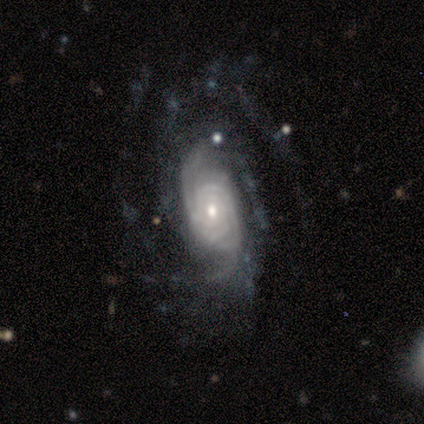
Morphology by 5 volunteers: This appears to be a featured or disk galaxy (100%) with no bar (80%), tight (100%) spiral arms (100%) and a moderate central bulge (40%, tied with small). Merging: none (60%).